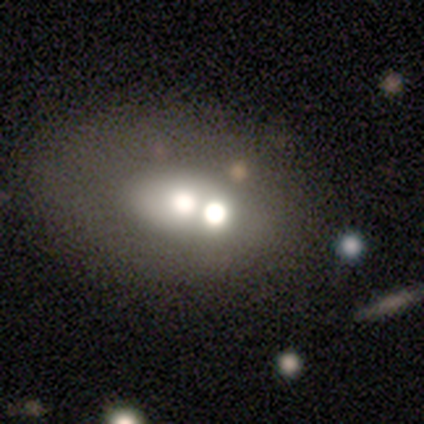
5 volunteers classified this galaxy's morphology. Volunteers were most divided on "smooth or featured" (2-way tie): featured or disk: 40%, star or artifact: 40%, smooth: 20%; "edge-on disk" (2-way tie): yes: 50%, no: 50%. More confident: edge-on bulge — rounded (100%); merging — merger (100%).